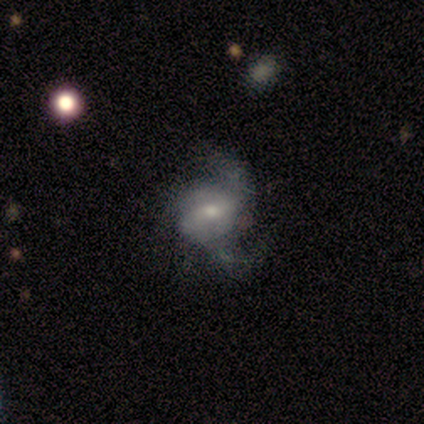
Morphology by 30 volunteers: Overall: featured or disk (70%). Edge-on disk: no (95%). Bar: no (50%; weak 35%). Spiral arms: yes (85%). Spiral arm count: 2 (76%). Spiral winding: loose (53%; medium 35%). Bulge size: moderate (50%; small 35%). Merging: minor disturbance (38%; none 33%).